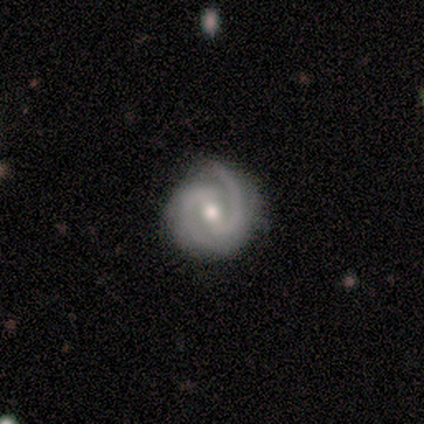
smooth-or-featured: featured or disk: 100% | smooth: 0% | star or artifact: 0%
  disk-edge-on: no: 100% | yes: 0%
    bar: weak: 71% | strong: 14% | no: 14%
    has-spiral-arms: yes: 100% | no: 0%
      spiral-winding: medium: 57% | tight: 43% | loose: 0%
      spiral-arm-count: 2: 100% | 1: 0% | 3: 0% | 4: 0% | more than 4: 0% | can't tell: 0%
    bulge-size: moderate: 100% | dominant: 0% | large: 0% | small: 0% | none: 0%
  merging: none: 100% | minor disturbance: 0% | major disturbance: 0% | merger: 0%